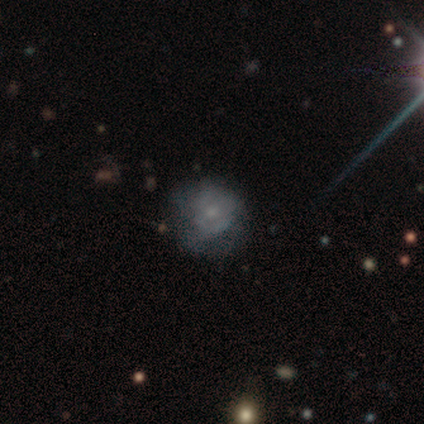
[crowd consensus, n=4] Overall: smooth (50%, tied with featured or disk). How rounded: round (50%, tied with in between). Merging: none (50%, tied with minor disturbance).